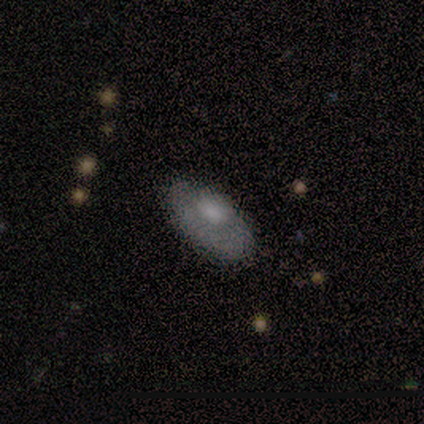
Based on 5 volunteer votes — Smooth or featured? 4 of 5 (80%) said featured or disk. Edge-on disk? 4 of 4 (100%) said no. Bar? 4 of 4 (100%) said no. Spiral arms? 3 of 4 (75%) said no. Bulge size? 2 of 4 (50%, tied with moderate) said large. Merging? 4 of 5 (80%) said none.